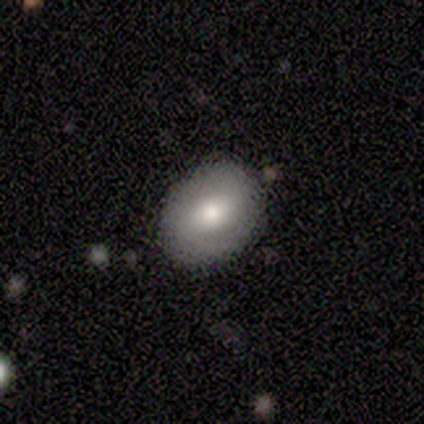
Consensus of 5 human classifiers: smooth-or-featured: smooth: 60% | featured or disk: 40% | star or artifact: 0%
  how-rounded: in between: 67% | round: 33% | cigar-shaped: 0%
  merging: none: 100% | minor disturbance: 0% | major disturbance: 0% | merger: 0%